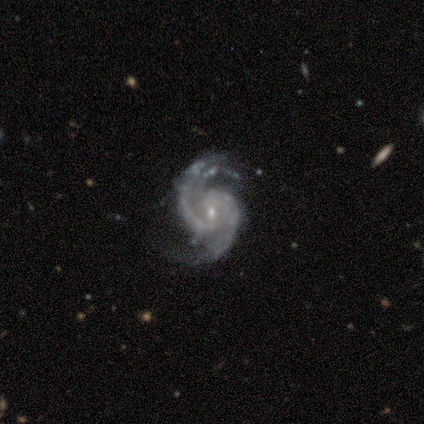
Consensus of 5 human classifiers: smooth-or-featured: featured or disk: 100% | smooth: 0% | star or artifact: 0%
  disk-edge-on: no: 100% | yes: 0%
    bar: no: 80% | weak: 20% | strong: 0%
    has-spiral-arms: yes: 100% | no: 0%
      spiral-winding: medium: 80% | loose: 20% | tight: 0%
      spiral-arm-count: 2: 60% | 4: 40% | 1: 0% | 3: 0% | more than 4: 0% | can't tell: 0%
    bulge-size: small: 60% | moderate: 20% | none: 20% | dominant: 0% | large: 0%
  merging: none: 100% | minor disturbance: 0% | major disturbance: 0% | merger: 0%